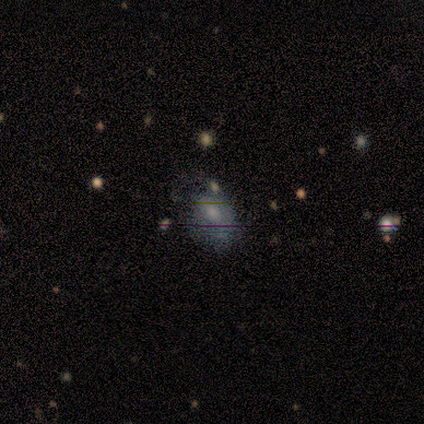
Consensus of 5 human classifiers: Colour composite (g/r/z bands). It shows a smooth galaxy with no disk features (40%, tied with star or artifact) that is round (50%, tied with in between). Merging: none (100%).